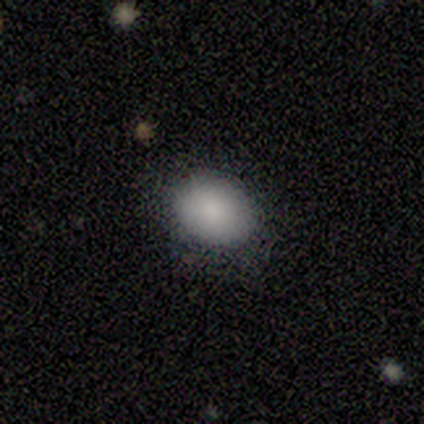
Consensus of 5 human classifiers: smooth-or-featured: smooth: 100% | featured or disk: 0% | star or artifact: 0%
  how-rounded: in between: 60% | round: 40% | cigar-shaped: 0%
  merging: none: 100% | minor disturbance: 0% | major disturbance: 0% | merger: 0%